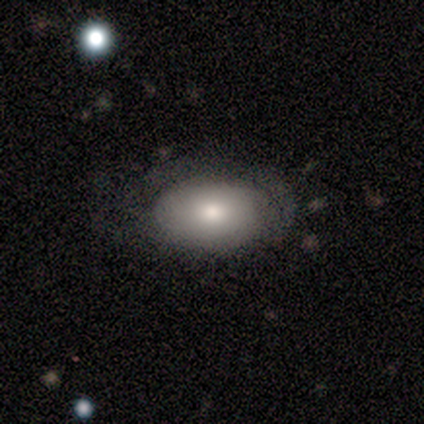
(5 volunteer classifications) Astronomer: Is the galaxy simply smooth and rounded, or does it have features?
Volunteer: smooth — 80%.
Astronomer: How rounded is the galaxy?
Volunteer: in between — 100%.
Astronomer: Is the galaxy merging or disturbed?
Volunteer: none — 60% (runner-up: major disturbance, 40%).